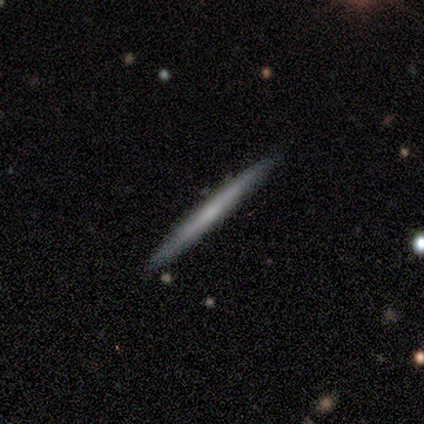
This appears to be a featured or disk galaxy (80%) viewed edge-on (75%) with no central bulge (100%). Merging: none (100%).